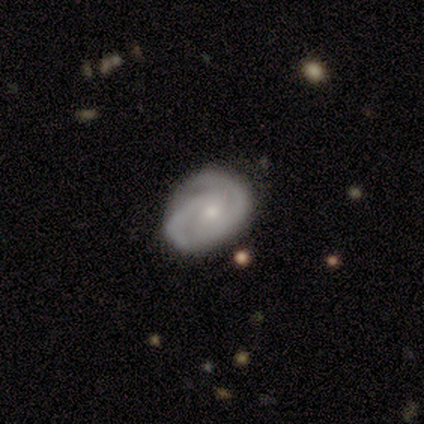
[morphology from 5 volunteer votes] This is clearly a featured or disk galaxy (80%). It is clearly not viewed edge-on (100%). Bar: possibly weak (50%). Spiral arm pattern: clearly yes (100%). Spiral arm count: clearly 2 (100%). Spiral winding: likely tight (75%). Central bulge: possibly moderate (50%, tied with small). Merging: likely none (75%).